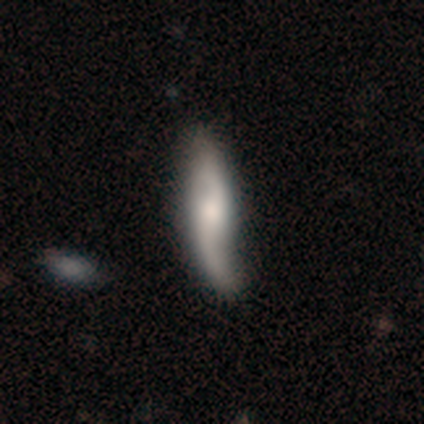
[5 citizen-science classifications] Smooth or featured? featured or disk (80%)
Edge-on disk? no (75%)
Bar? strong (33%, tied with weak and no)
Spiral arms? yes (100%)
Spiral winding? medium (67%)
Spiral arm count? 2 (100%)
Bulge size? moderate (100%)
Merging? none (60%)